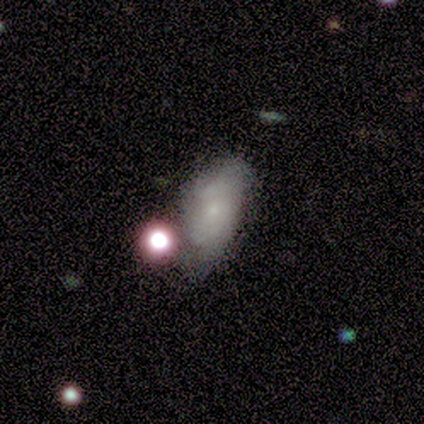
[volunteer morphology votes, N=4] A smooth galaxy with no disk features (75%) that is in between round and cigar-shaped (100%). Merging: major disturbance (50%).